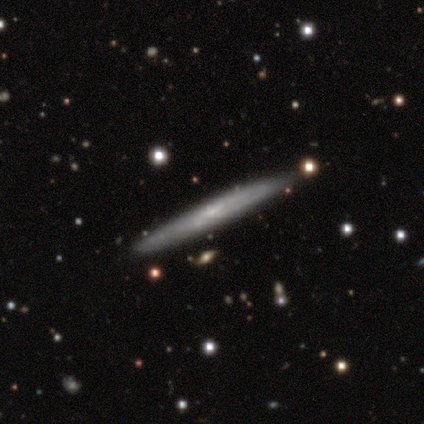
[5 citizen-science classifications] Volunteers were most divided on "smooth or featured" (2-way tie): smooth: 40%, featured or disk: 40%, star or artifact: 20%. More confident: how rounded — cigar-shaped (100%); merging — none (100%).